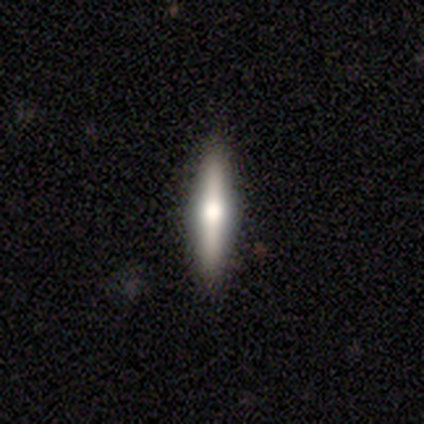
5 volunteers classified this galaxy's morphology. smooth_or_featured: featured or disk (p=0.60) [alt: smooth p=0.40]
disk_edge_on: yes (p=1.00)
edge_on_bulge: rounded (p=1.00)
merging: none (p=0.80) [alt: minor disturbance p=0.20]